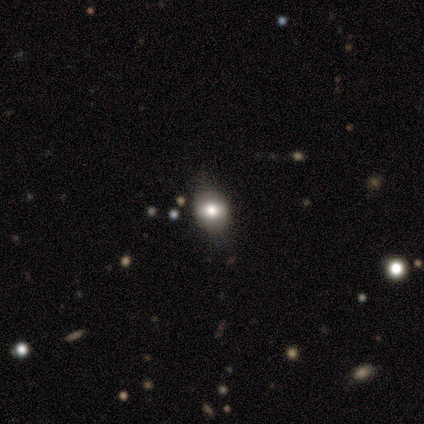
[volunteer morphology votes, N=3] Smooth or featured? smooth (67%)
How rounded? round (50%, tied with in between)
Merging? none (67%)